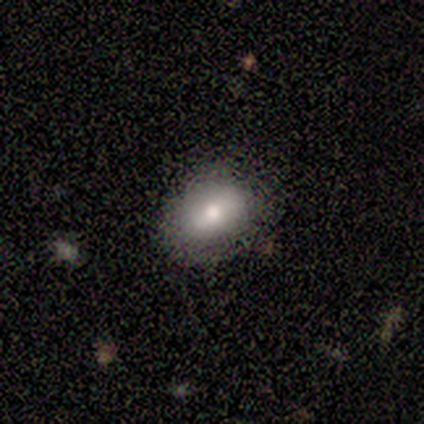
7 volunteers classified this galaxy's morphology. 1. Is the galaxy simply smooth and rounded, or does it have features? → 100% smooth, 0% featured or disk, 0% star or artifact.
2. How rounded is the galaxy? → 71% in between, 29% round, 0% cigar-shaped.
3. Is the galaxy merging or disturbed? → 86% none, 14% minor disturbance, 0% major disturbance, 0% merger.